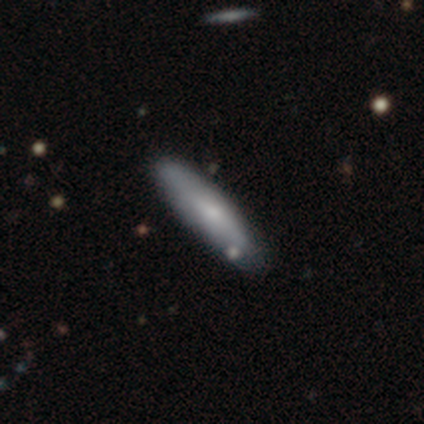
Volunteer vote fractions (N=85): Smooth or featured: smooth — 66% (featured or disk — 25%)
How rounded: cigar-shaped — 91% (in between — 9%)
Merging: none — 82% (minor disturbance — 14%)